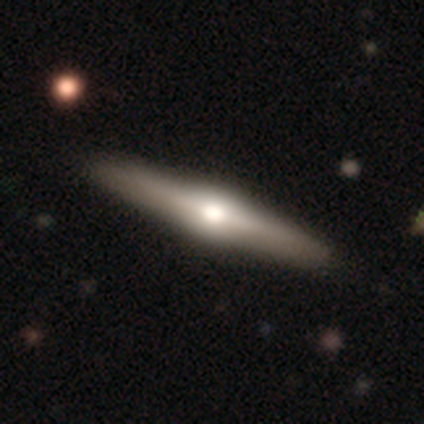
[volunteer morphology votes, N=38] smooth-or-featured: featured or disk: 74% | smooth: 24% | star or artifact: 3%
  disk-edge-on: yes: 100% | no: 0%
    edge-on-bulge: rounded: 96% | boxy: 4% | none: 0%
  merging: none: 54% | minor disturbance: 5% | merger: 3% | major disturbance: 0%